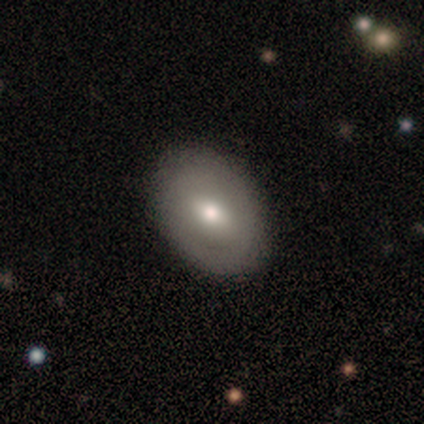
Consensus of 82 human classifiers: Q: Smooth or featured?
A: smooth (67%); runner-up: featured or disk (28%)
Q: How rounded?
A: in between (84%); runner-up: round (16%)
Q: Merging?
A: none (92%); runner-up: minor disturbance (4%)